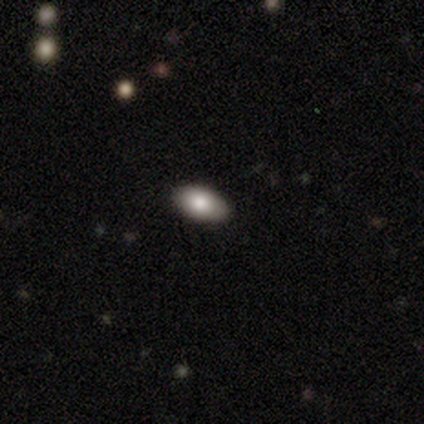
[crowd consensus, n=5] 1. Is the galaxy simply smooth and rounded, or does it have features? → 40% smooth (tied), 40% star or artifact (tied), 20% featured or disk.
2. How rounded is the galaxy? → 100% in between, 0% round, 0% cigar-shaped.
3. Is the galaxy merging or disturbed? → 100% none, 0% minor disturbance, 0% major disturbance, 0% merger.